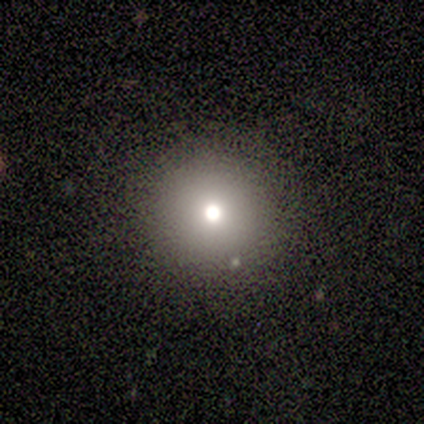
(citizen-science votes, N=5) smooth 80%, star or artifact 20%, featured or disk 0%. Down the decision tree: how rounded — round (100%); merging — none (100%).